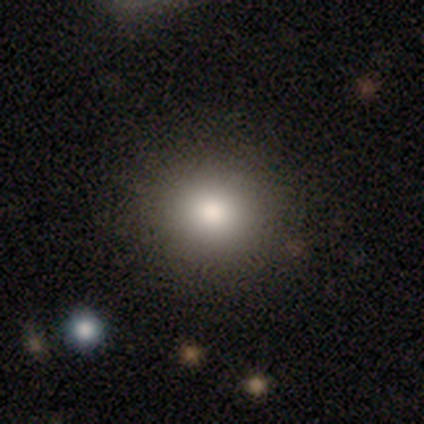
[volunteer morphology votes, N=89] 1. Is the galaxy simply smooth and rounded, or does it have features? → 88% smooth, 10% star or artifact, 2% featured or disk.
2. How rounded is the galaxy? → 83% round, 17% in between, 0% cigar-shaped.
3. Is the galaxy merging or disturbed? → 85% none, 8% minor disturbance, 8% major disturbance, 0% merger.